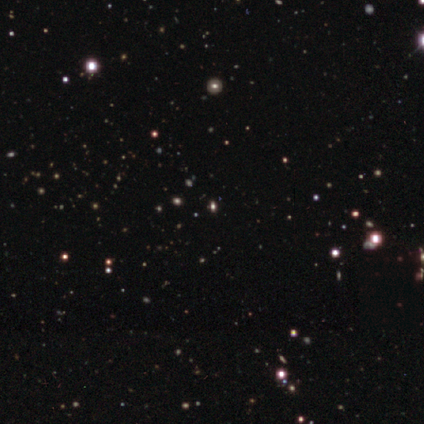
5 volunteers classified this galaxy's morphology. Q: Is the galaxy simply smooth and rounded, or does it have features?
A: star or artifact — 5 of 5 (100%).